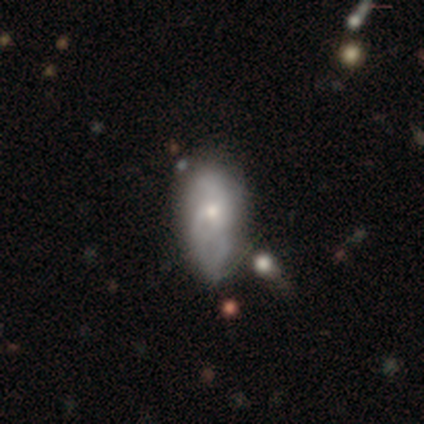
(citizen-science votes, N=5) A smooth galaxy with no disk features (80%) that is in between round and cigar-shaped (100%).

Vote fractions:
- Smooth or featured? smooth: 80% / featured or disk: 20% / star or artifact: 0%
- How rounded? in between: 100% / round: 0% / cigar-shaped: 0%
- Merging? minor disturbance: 60% / none: 20% / major disturbance: 20% / merger: 0%